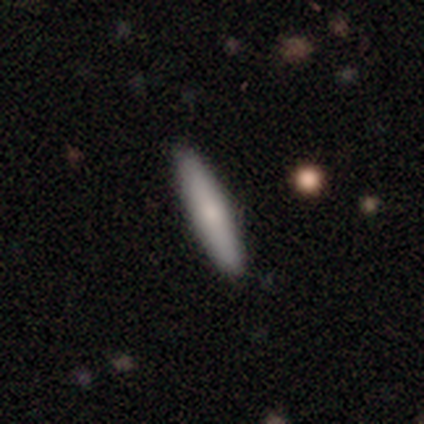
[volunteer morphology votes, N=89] Smooth or featured: smooth — 73% (featured or disk — 20%)
How rounded: cigar-shaped — 86% (in between — 14%)
Merging: none — 89% (minor disturbance — 8%)